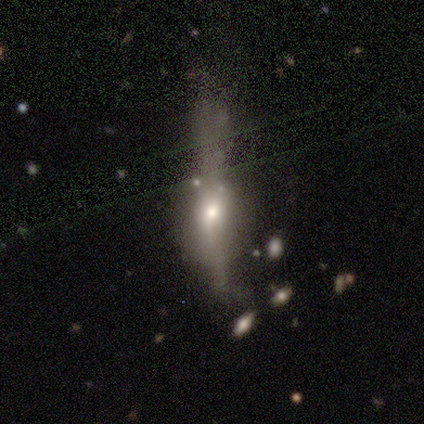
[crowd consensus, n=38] Volunteers were most divided on "smooth or featured": featured or disk: 45%, smooth: 42%, star or artifact: 13%. Remaining: edge-on bulge — rounded (89%); edge-on disk — yes (53%); merging — major disturbance (42%).